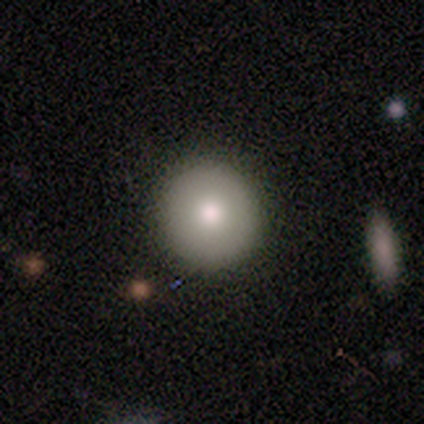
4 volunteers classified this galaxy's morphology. Smooth or featured?
  - smooth: 50% *
  - featured or disk: 25%
  - star or artifact: 25%
How rounded?
  - round: 100% *
  - in between: 0%
  - cigar-shaped: 0%
Merging?
  - none: 100% *
  - minor disturbance: 0%
  - major disturbance: 0%
  - merger: 0%